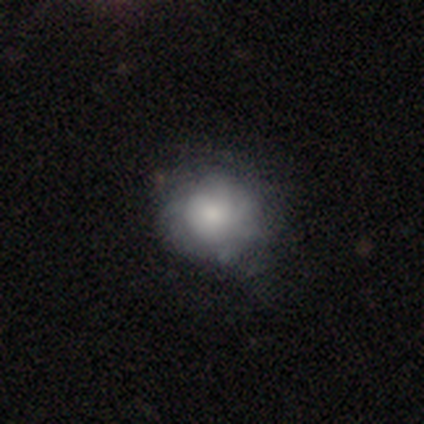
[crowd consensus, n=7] Smooth or featured?
  - smooth: 86% *
  - featured or disk: 14%
  - star or artifact: 0%
How rounded?
  - round: 100% *
  - in between: 0%
  - cigar-shaped: 0%
Merging?
  - none: 71% *
  - minor disturbance: 14%
  - major disturbance: 14%
  - merger: 0%